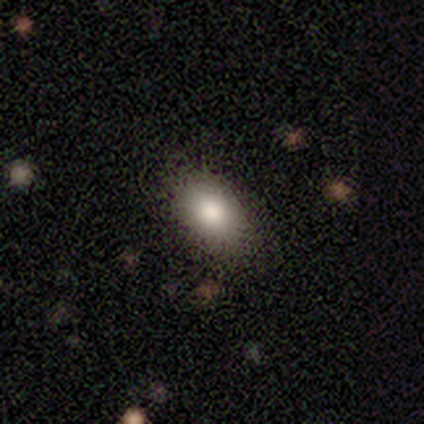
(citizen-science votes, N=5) This appears to be a smooth galaxy with no disk features (60%) that is in between round and cigar-shaped (67%). Merging: none (100%).